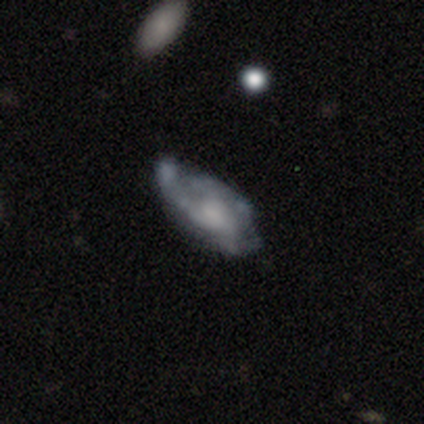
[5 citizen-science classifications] A featured or disk galaxy (60%) with no bar (100%), no spiral arms (100%) and a moderate central bulge (50%, tied with none). Merging: none (40%, tied with minor disturbance).